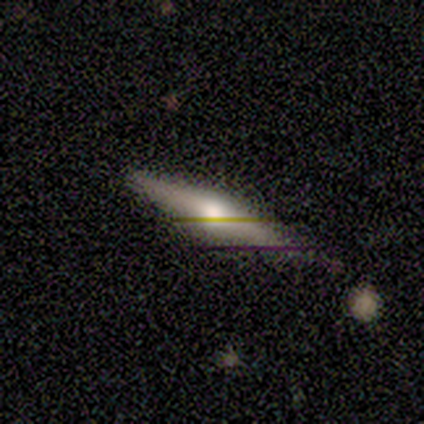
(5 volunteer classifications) This is marginally a smooth galaxy (40%, tied with featured or disk). How rounded: clearly cigar-shaped (100%). Merging: clearly none (100%).